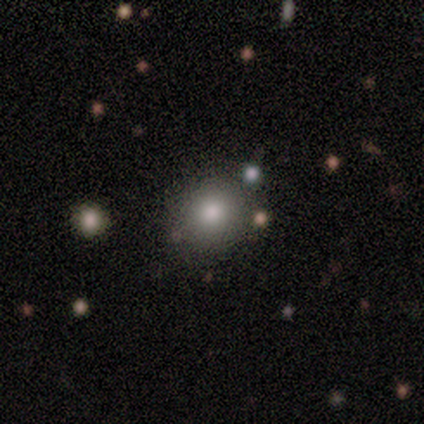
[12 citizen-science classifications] smooth 83%, star or artifact 17%, featured or disk 0%. Down the decision tree: how rounded — round (100%); merging — none (90%).